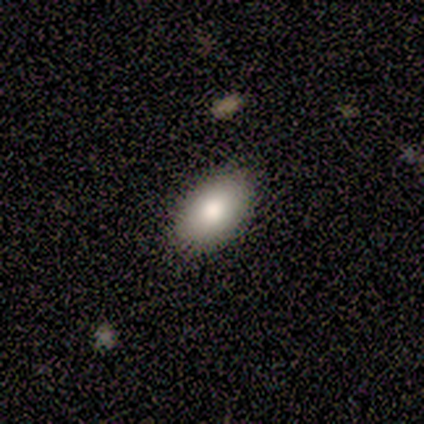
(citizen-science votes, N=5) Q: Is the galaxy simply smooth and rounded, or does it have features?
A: smooth — 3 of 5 (60%).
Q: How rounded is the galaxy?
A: in between — 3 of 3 (100%).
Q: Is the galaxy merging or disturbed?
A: none — 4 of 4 (100%).